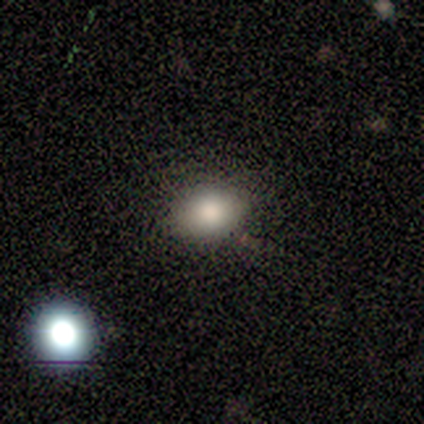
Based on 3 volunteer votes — smooth-or-featured: smooth: 67% | featured or disk: 33% | star or artifact: 0%
  how-rounded: in between: 100% | round: 0% | cigar-shaped: 0%
  merging: none: 100% | minor disturbance: 0% | major disturbance: 0% | merger: 0%